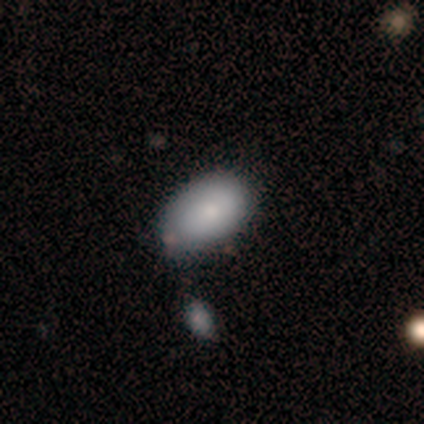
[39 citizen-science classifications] Smooth or featured? smooth (74%)
How rounded? in between (97%)
Merging? none (61%)